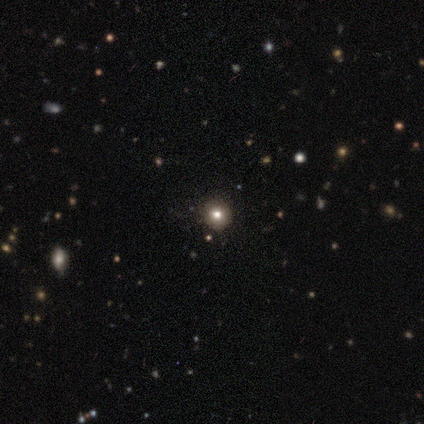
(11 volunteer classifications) Morphology: type=smooth (45%); roundness=round (100%); merging=none (100%).